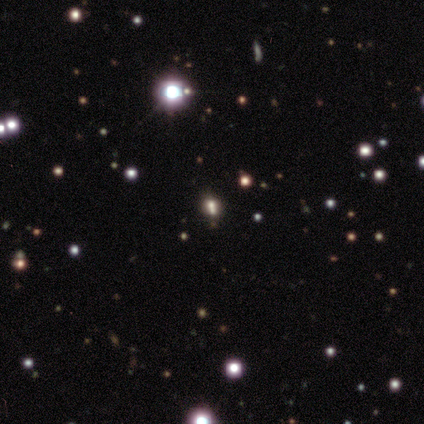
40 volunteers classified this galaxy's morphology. smooth_or_featured: star or artifact (p=0.60) [alt: smooth p=0.38]